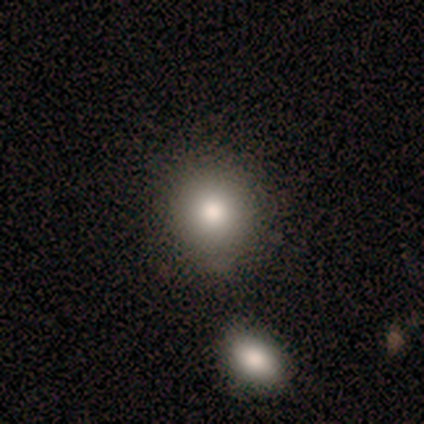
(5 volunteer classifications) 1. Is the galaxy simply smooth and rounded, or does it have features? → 80% smooth, 20% featured or disk, 0% star or artifact.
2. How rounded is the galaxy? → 75% round, 25% in between, 0% cigar-shaped.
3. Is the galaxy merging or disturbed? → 80% none, 20% minor disturbance, 0% major disturbance, 0% merger.